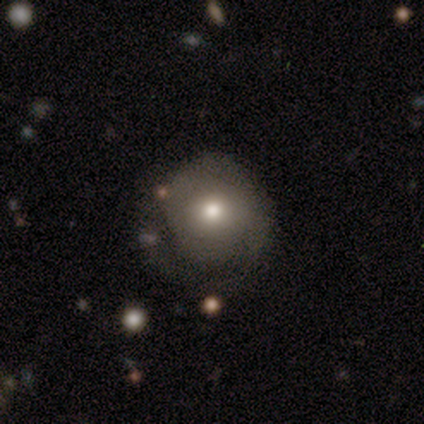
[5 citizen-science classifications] This appears to be a featured or disk galaxy (40%, tied with star or artifact) with no bar (100%), tight (100%) spiral arms (100%) and a large central bulge (50%, tied with moderate). Merging: minor disturbance (67%).